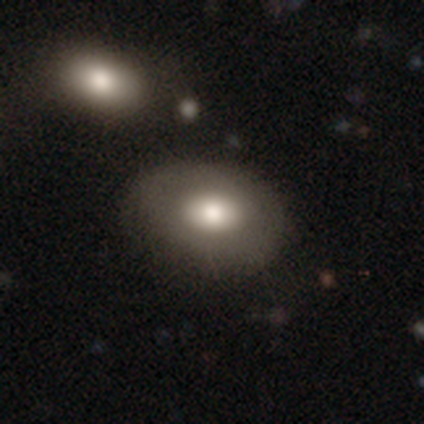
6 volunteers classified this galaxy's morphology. smooth_or_featured: smooth (p=0.50) [tied with: featured or disk p=0.50]
how_rounded: in between (p=0.67) [alt: round p=0.33]
merging: none (p=0.83) [alt: minor disturbance p=0.17]